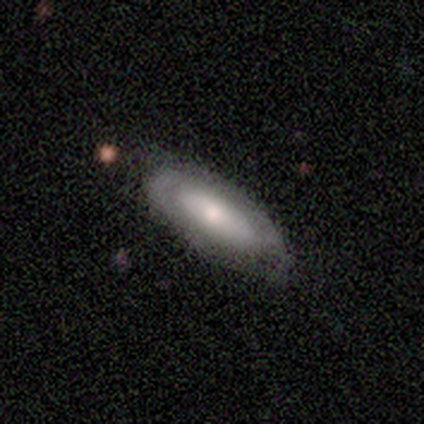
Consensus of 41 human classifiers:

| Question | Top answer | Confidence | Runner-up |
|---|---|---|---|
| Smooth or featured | smooth | 54% | featured or disk (39%) |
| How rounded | in between | 95% | cigar-shaped (5%) |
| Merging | none | 76% | minor disturbance (16%) |